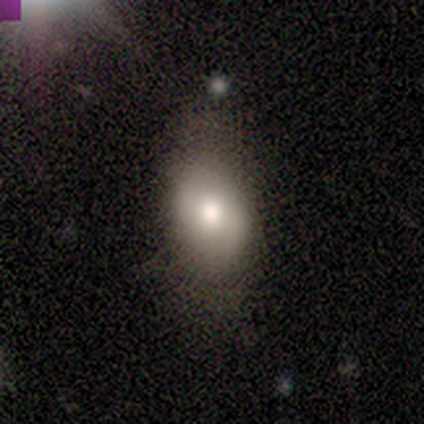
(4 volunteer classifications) Smooth or featured: smooth — 75% (featured or disk — 25%)
How rounded: round — 67% (in between — 33%)
Merging: none — 75% (minor disturbance — 25%)